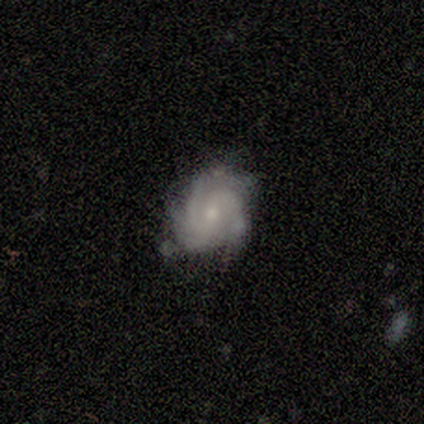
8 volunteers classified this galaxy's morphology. A featured or disk galaxy (100%) with no bar (50%), 3 (71%) tight (57%) spiral arms (88%) and a moderate central bulge (50%). Merging: none (75%).